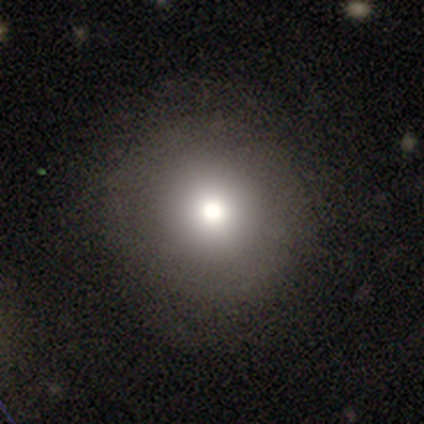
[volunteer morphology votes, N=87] Q: Smooth or featured?
A: smooth (66%); runner-up: featured or disk (17%)
Q: How rounded?
A: round (98%); runner-up: in between (2%)
Q: Merging?
A: none (85%); runner-up: minor disturbance (12%)